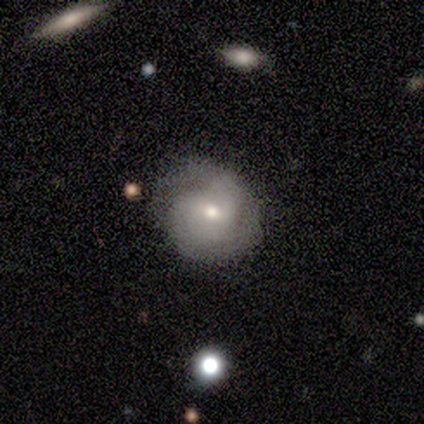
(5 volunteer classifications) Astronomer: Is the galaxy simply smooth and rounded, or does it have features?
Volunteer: featured or disk — 60% (runner-up: smooth, 40%).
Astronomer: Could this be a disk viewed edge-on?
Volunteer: no — 100%.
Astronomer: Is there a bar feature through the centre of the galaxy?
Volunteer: weak — 67%.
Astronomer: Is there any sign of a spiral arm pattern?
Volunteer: yes — 100%.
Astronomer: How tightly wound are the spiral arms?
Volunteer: tight — 67%.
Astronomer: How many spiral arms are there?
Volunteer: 3 — 67%.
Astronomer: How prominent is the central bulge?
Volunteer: moderate — 100%.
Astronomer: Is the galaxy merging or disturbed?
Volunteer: minor disturbance — 80%.